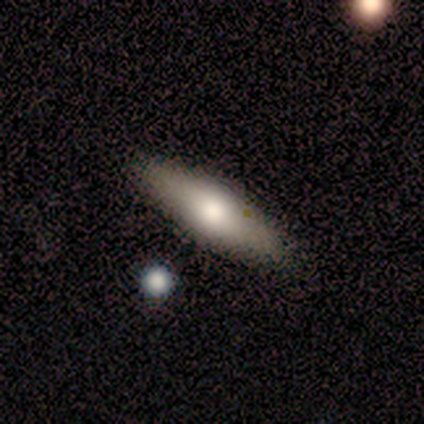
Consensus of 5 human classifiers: smooth_or_featured: smooth (p=0.60) [alt: featured or disk p=0.20]
how_rounded: cigar-shaped (p=1.00)
merging: none (p=1.00)